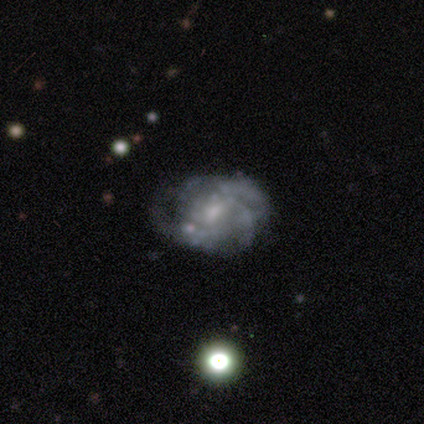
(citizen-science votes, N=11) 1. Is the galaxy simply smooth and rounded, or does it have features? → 100% featured or disk, 0% smooth, 0% star or artifact.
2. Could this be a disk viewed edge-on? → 91% no, 9% yes.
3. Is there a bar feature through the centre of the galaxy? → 50% weak (tied), 50% no (tied), 0% strong.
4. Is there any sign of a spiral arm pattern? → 70% yes, 30% no.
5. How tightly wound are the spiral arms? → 71% medium, 29% tight, 0% loose.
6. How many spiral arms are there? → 57% 3, 43% can't tell, 0% 1, 0% 2, 0% 4, 0% more than 4.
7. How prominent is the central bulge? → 50% small, 40% moderate, 10% none, 0% dominant, 0% large.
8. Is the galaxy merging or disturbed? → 55% none, 18% major disturbance, 18% merger, 9% minor disturbance.